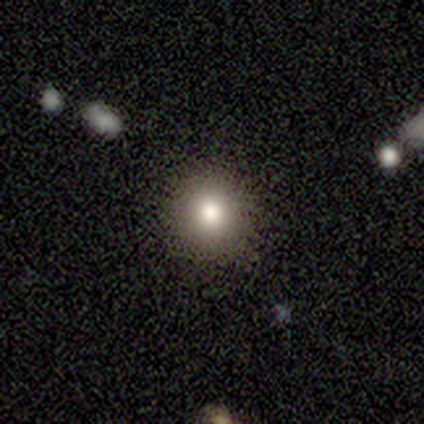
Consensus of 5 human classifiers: Volunteers were most divided on "how rounded": round: 80%, in between: 20%, cigar-shaped: 0%. More confident: smooth or featured — smooth (100%); merging — none (100%).